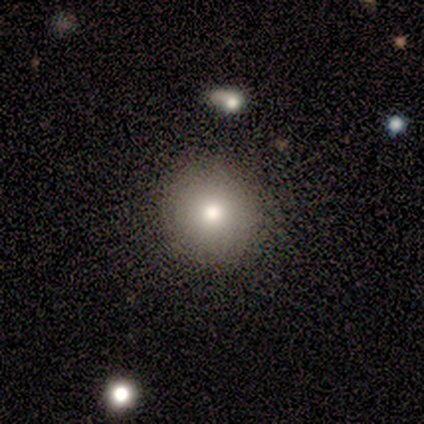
A smooth galaxy with no disk features (100%) that is round (50%, tied with in between).

Vote fractions:
- Smooth or featured? smooth: 100% / featured or disk: 0% / star or artifact: 0%
- How rounded? round: 50% (tied) / in between: 50% (tied) / cigar-shaped: 0%
- Merging? none: 100% / minor disturbance: 0% / major disturbance: 0% / merger: 0%